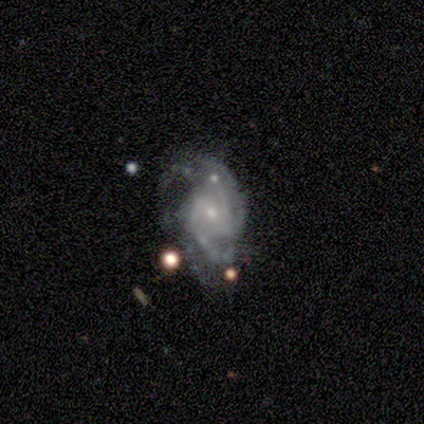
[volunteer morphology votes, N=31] Smooth or featured?
  - featured or disk: 87% *
  - smooth: 13%
  - star or artifact: 0%
Edge-on disk?
  - no: 96% *
  - yes: 4%
Bar?
  - no: 65% *
  - weak: 27%
  - strong: 8%
Spiral arms?
  - yes: 100% *
  - no: 0%
Spiral winding?
  - medium: 46% *
  - tight: 38%
  - loose: 15%
Spiral arm count?
  - 2: 27% * (tied)
  - 3: 27% * (tied)
  - can't tell: 27% * (tied)
  - 4: 15%
  - more than 4: 4%
  - 1: 0%
Bulge size?
  - small: 69% *
  - moderate: 23%
  - large: 4%
  - none: 4%
  - dominant: 0%
Merging?
  - none: 48% *
  - major disturbance: 29%
  - minor disturbance: 16%
  - merger: 6%